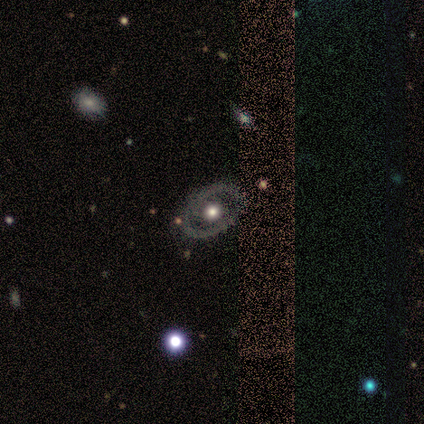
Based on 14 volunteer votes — featured or disk 79%, smooth 21%, star or artifact 0%. Down the decision tree: edge-on disk — no (100%); bar — no (82%); spiral arms — no (73%); bulge size — moderate (82%); merging — none (86%).